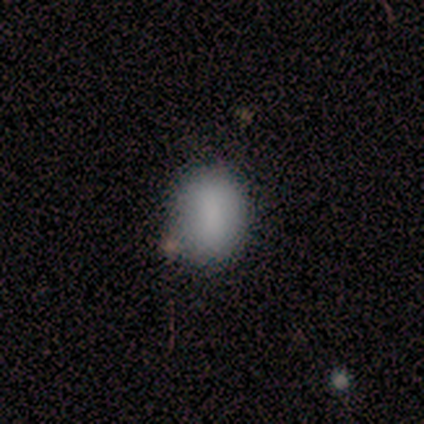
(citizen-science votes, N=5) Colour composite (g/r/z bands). It shows a smooth galaxy with no disk features (80%) that is in between round and cigar-shaped (75%). Merging: none (100%).